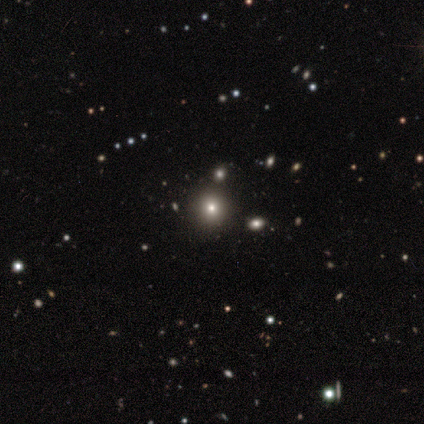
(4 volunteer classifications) Morphology: type=smooth (50%, tied with star or artifact); roundness=round (100%); merging=none (100%).